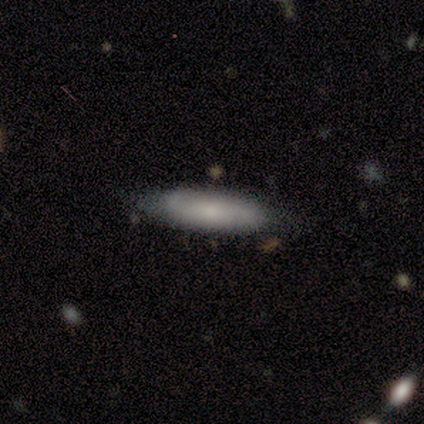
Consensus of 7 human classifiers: smooth 86%, featured or disk 14%, star or artifact 0%. Down the decision tree: how rounded — cigar-shaped (67%); merging — none (71%).